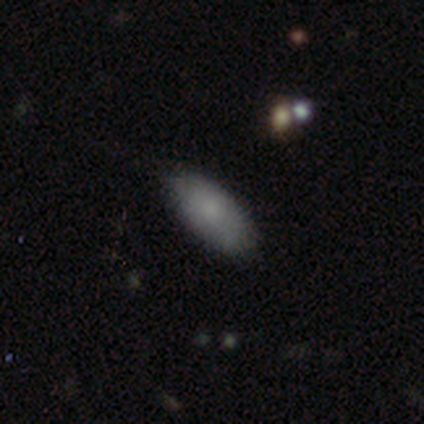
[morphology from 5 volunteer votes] Volunteers were most divided on "how rounded" (2-way tie): round: 40%, in between: 40%, cigar-shaped: 20%. More confident: smooth or featured — smooth (100%); merging — none (80%).